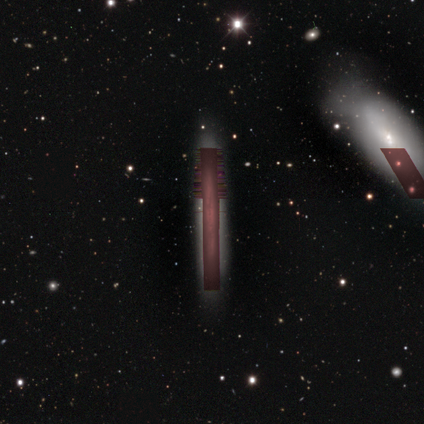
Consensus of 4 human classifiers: Smooth or featured? 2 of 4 (50%) said star or artifact.